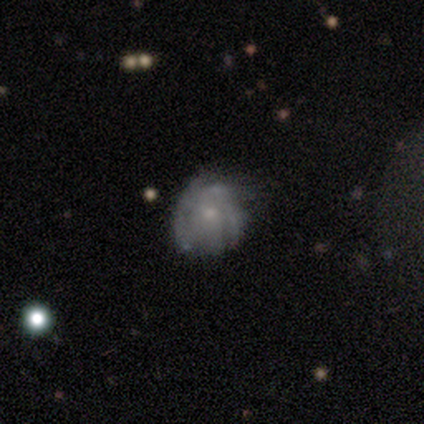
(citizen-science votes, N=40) Smooth or featured: featured or disk — 65% (smooth — 28%)
Edge-on disk: no — 100%
Bar: no — 88% (weak — 12%)
Spiral arms: yes — 62% (no — 38%)
Spiral winding: tight — 69% (medium — 25%)
Spiral arm count: can't tell — 69% (4 — 19%)
Bulge size: small — 85% (large — 8%)
Merging: none — 46% (minor disturbance — 30%)